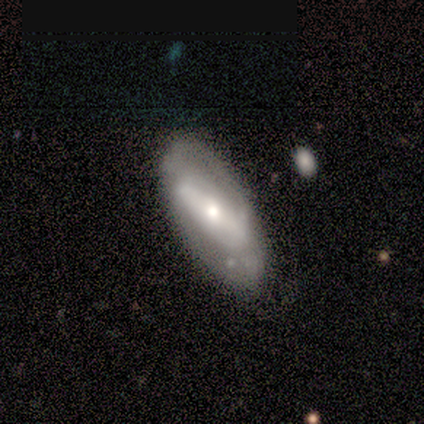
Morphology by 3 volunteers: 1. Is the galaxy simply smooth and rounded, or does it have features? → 100% featured or disk, 0% smooth, 0% star or artifact.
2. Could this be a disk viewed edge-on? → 100% no, 0% yes.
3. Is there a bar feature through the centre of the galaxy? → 100% strong, 0% weak, 0% no.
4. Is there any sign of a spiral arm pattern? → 67% no, 33% yes.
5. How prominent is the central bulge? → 100% moderate, 0% dominant, 0% large, 0% small, 0% none.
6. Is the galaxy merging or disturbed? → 67% none, 33% minor disturbance, 0% major disturbance, 0% merger.